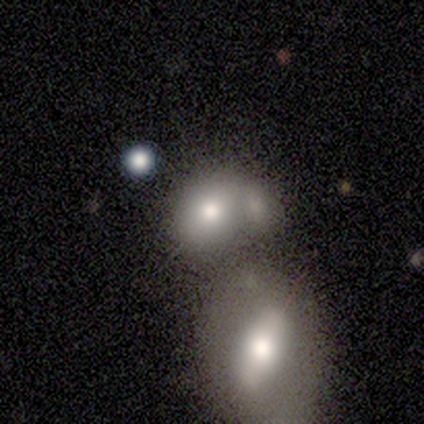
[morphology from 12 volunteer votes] Smooth or featured: smooth — 67% (featured or disk — 25%)
How rounded: round — 75% (in between — 25%)
Merging: merger — 45% (minor disturbance — 27%)